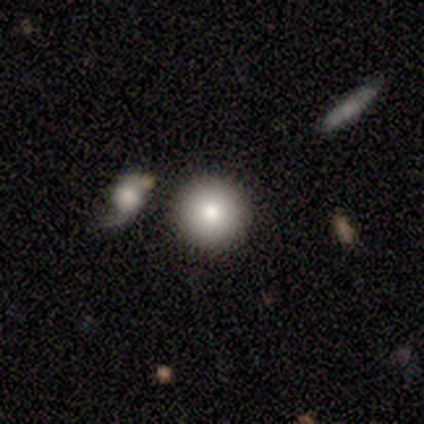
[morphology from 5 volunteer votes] smooth-or-featured: smooth: 100% | featured or disk: 0% | star or artifact: 0%
  how-rounded: round: 100% | in between: 0% | cigar-shaped: 0%
  merging: none: 100% | minor disturbance: 0% | major disturbance: 0% | merger: 0%